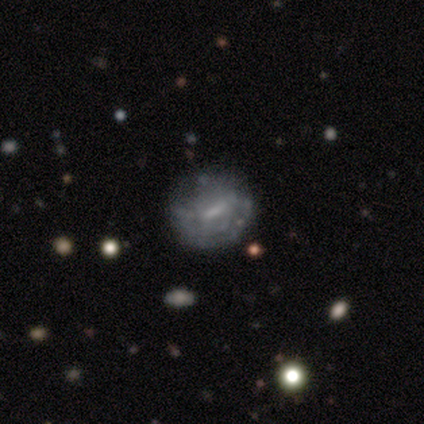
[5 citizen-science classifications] A smooth galaxy with no disk features (60%) that is round (67%).

Vote fractions:
- Smooth or featured? smooth: 60% / featured or disk: 40% / star or artifact: 0%
- How rounded? round: 67% / in between: 33% / cigar-shaped: 0%
- Merging? none: 60% / major disturbance: 40% / minor disturbance: 0% / merger: 0%